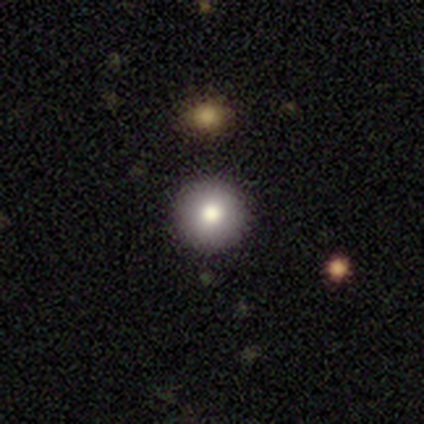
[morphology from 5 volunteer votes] smooth-or-featured: smooth: 80% | star or artifact: 20% | featured or disk: 0%
  how-rounded: round: 100% | in between: 0% | cigar-shaped: 0%
  merging: none: 100% | minor disturbance: 0% | major disturbance: 0% | merger: 0%